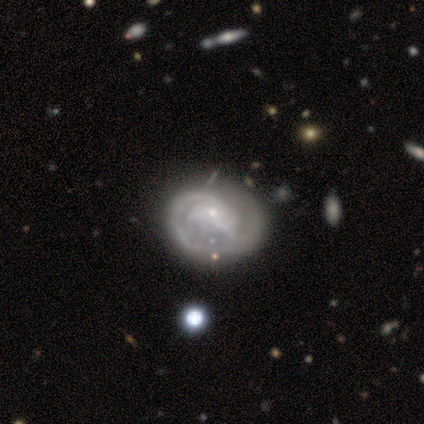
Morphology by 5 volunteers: Overall: featured or disk (80%). Edge-on disk: no (100%). Bar: no (75%). Spiral arms: yes (50%, tied with no). Spiral arm count: 1 (50%, tied with can't tell). Spiral winding: tight (100%). Bulge size: small (75%). Merging: minor disturbance (50%; none 25%).